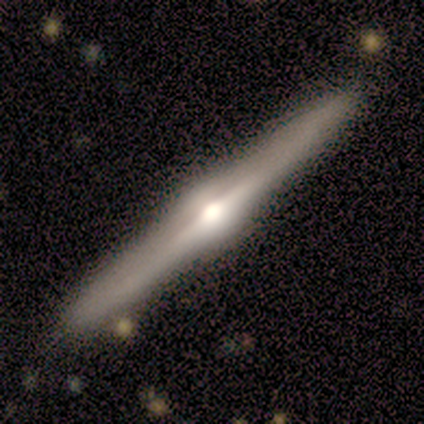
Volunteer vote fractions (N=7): A featured or disk galaxy (86%) viewed edge-on (100%) with a rounded central bulge (100%). Merging: none (100%).